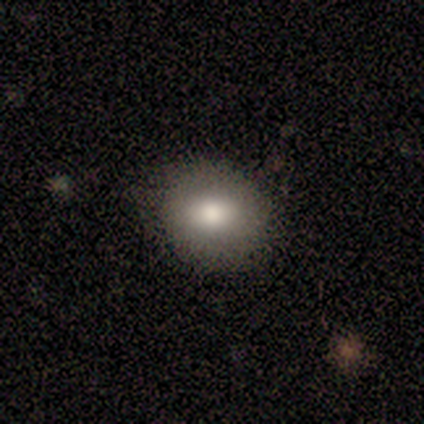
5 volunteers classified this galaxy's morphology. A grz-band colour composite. It shows a smooth galaxy with no disk features (60%) that is round (67%). Merging: none (100%).